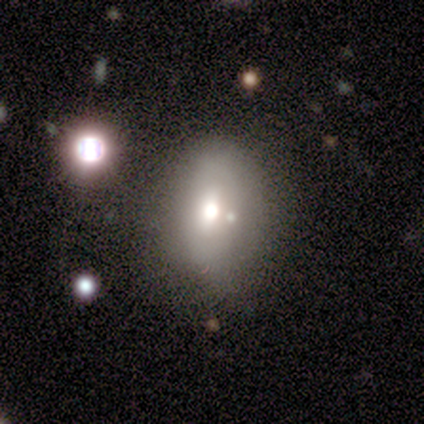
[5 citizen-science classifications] A smooth galaxy with no disk features (60%) that is in between round and cigar-shaped (100%). Merging: none (60%).